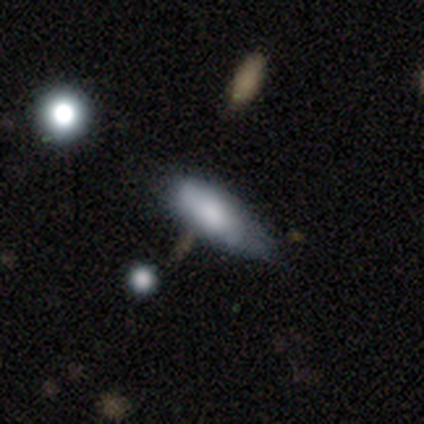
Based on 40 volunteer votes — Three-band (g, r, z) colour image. It shows a smooth galaxy with no disk features (70%) that is in between round and cigar-shaped (75%). Merging: none (46%, tied with minor disturbance).